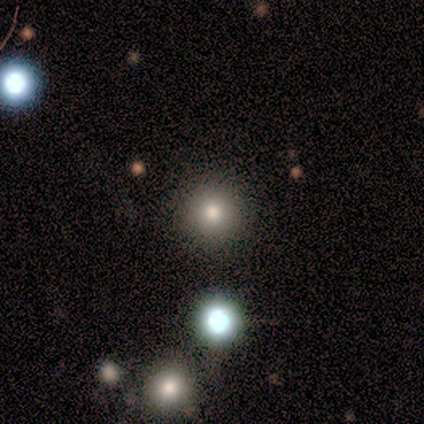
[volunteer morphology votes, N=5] Smooth or featured: smooth — 80% (star or artifact — 20%)
How rounded: round — 100%
Merging: none — 100%